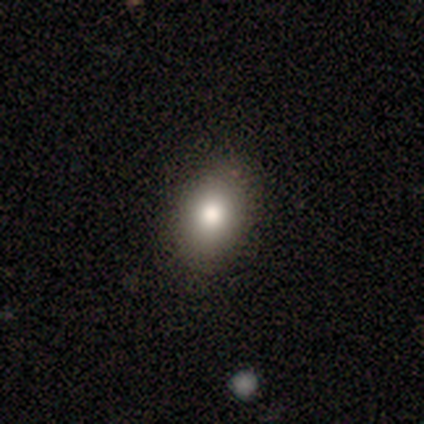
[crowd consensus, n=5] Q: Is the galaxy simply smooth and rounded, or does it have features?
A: smooth — 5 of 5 (100%).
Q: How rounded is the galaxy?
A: in between — 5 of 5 (100%).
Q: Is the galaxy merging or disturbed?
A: none — 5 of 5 (100%).